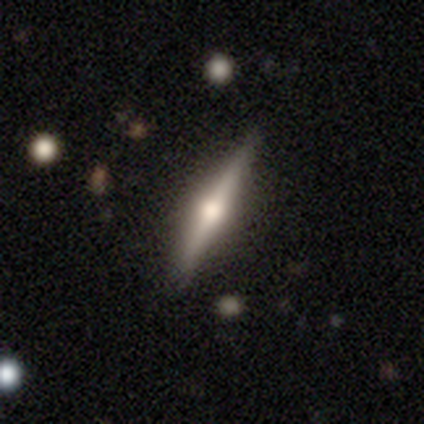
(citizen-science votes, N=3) Smooth or featured?
  - featured or disk: 67% *
  - smooth: 33%
  - star or artifact: 0%
Edge-on disk?
  - yes: 100% *
  - no: 0%
Edge-on bulge?
  - rounded: 100% *
  - boxy: 0%
  - none: 0%
Merging?
  - none: 67% *
  - merger: 33%
  - minor disturbance: 0%
  - major disturbance: 0%